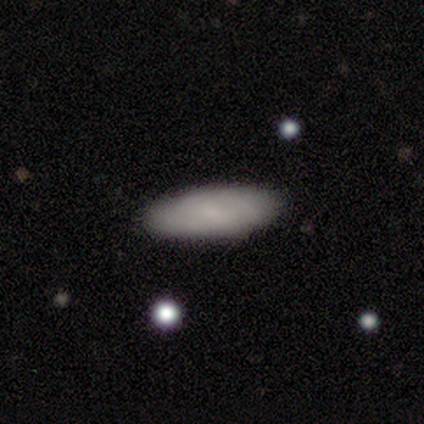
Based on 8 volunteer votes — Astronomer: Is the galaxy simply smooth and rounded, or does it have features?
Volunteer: smooth — 50%, tied with featured or disk at 50%.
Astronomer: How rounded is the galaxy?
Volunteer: in between — 50%, tied with cigar-shaped at 50%.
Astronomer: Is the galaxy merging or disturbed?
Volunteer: none — 75%.